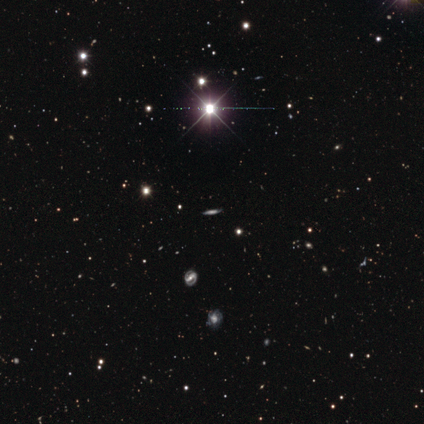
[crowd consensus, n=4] Smooth or featured? star or artifact (75%)